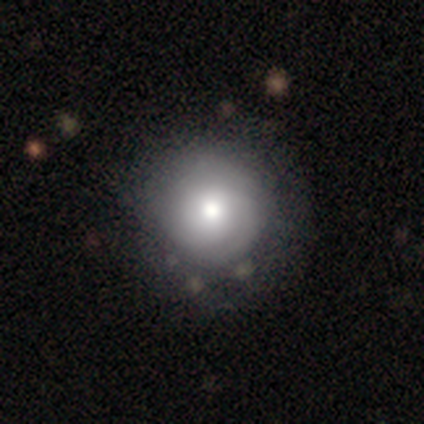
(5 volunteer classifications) smooth-or-featured: smooth: 60% | featured or disk: 20% | star or artifact: 20%
  how-rounded: round: 100% | in between: 0% | cigar-shaped: 0%
  merging: none: 50% (tied) | minor disturbance: 50% (tied) | major disturbance: 0% | merger: 0%